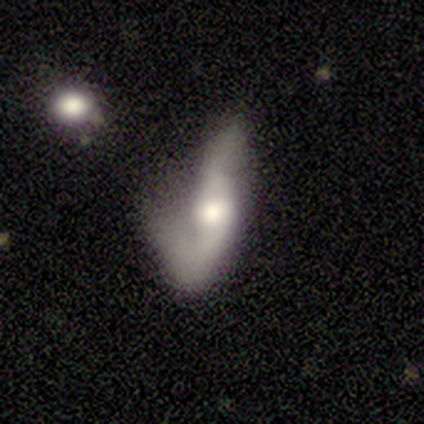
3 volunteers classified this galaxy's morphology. This is likely a featured or disk galaxy (67%). It is clearly viewed edge-on (100%). Edge-on bulge: clearly rounded (100%). Merging: clearly major disturbance (100%).